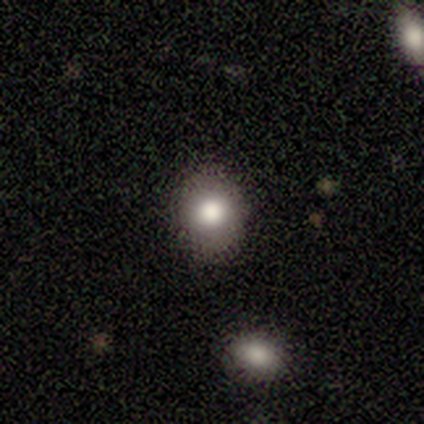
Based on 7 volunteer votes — Smooth or featured? 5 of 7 (71%) said smooth. How rounded? 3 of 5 (60%) said round. Merging? 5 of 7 (71%) said none.